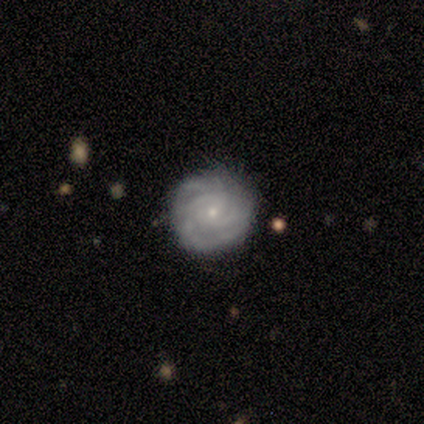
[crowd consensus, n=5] A featured or disk galaxy (80%) with a weak bar (75%), more than 4 (50%) tight (100%) spiral arms (100%) and a small central bulge (100%). Merging: none (100%).